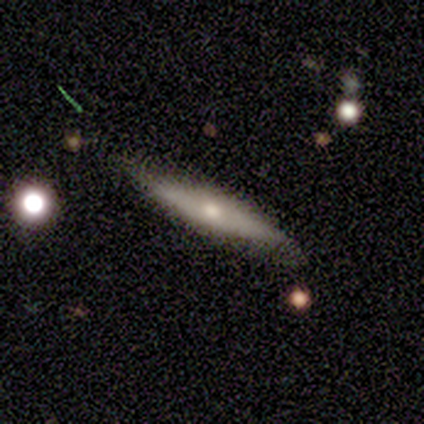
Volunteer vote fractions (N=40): Q: Smooth or featured?
A: featured or disk (65%); runner-up: smooth (30%)
Q: Edge-on disk?
A: yes (88%); runner-up: no (12%)
Q: Edge-on bulge?
A: rounded (78%); runner-up: none (22%)
Q: Merging?
A: none (74%); runner-up: minor disturbance (18%)